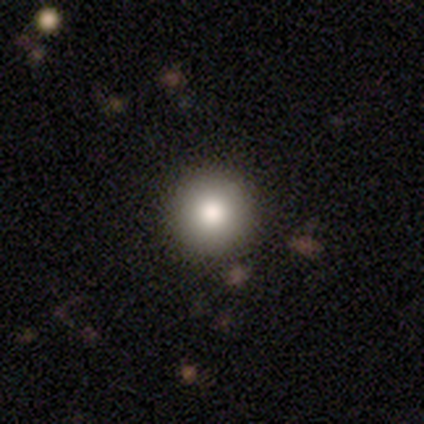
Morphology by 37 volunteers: smooth_or_featured: smooth (p=0.81) [alt: featured or disk p=0.11]
how_rounded: round (p=0.97) [alt: in between p=0.03]
merging: none (p=0.47) [alt: minor disturbance p=0.03]